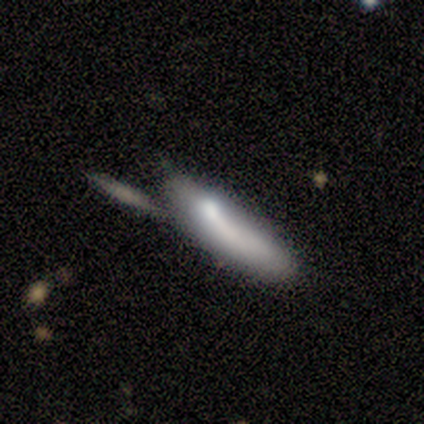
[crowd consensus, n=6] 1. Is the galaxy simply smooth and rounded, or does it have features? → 100% smooth, 0% featured or disk, 0% star or artifact.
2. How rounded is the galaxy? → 67% cigar-shaped, 33% in between, 0% round.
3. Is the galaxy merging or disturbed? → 33% none (tied), 33% minor disturbance (tied), 17% major disturbance, 17% merger.